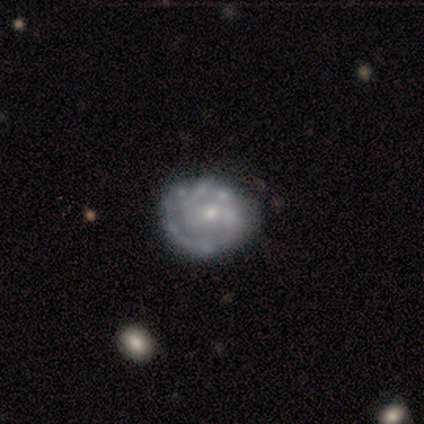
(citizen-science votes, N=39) smooth_or_featured: featured or disk (p=0.82) [alt: smooth p=0.13]
disk_edge_on: no (p=1.00)
bar: no (p=0.81) [alt: weak p=0.16]
has_spiral_arms: yes (p=0.56) [alt: no p=0.44]
spiral_winding: tight (p=0.72) [alt: medium p=0.22]
spiral_arm_count: 2 (p=0.39) [tied with: can't tell p=0.39]
bulge_size: small (p=0.62) [alt: moderate p=0.31]
merging: none (p=0.59) [alt: minor disturbance p=0.24]